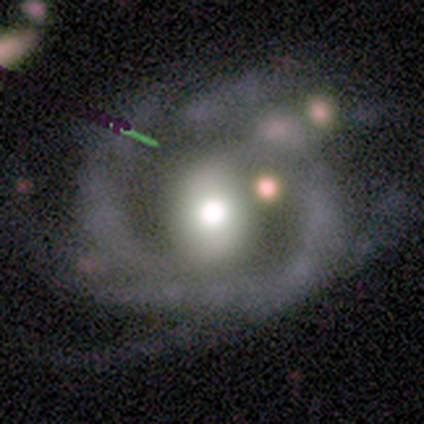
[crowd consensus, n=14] This is likely a featured or disk galaxy (71%). It is clearly not viewed edge-on (100%). Bar: likely weak (60%). Spiral arm pattern: likely yes (60%). Spiral arm count: possibly can't tell (50%). Spiral winding: likely loose (67%). Central bulge: clearly moderate (80%). Merging: marginally major disturbance (38%).